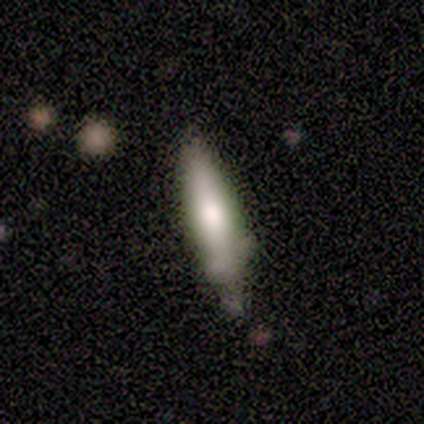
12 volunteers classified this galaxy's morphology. Smooth or featured? smooth (75%)
How rounded? cigar-shaped (78%)
Merging? minor disturbance (55%)